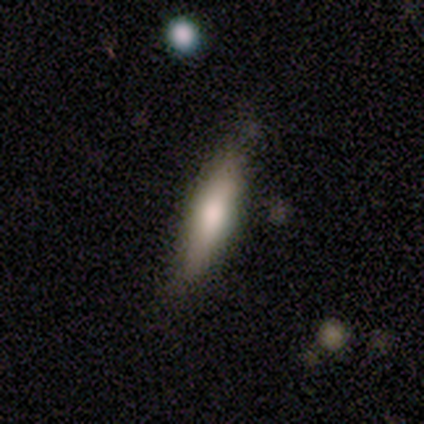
Smooth or featured? 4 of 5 (80%) said smooth. How rounded? 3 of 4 (75%) said cigar-shaped. Merging? 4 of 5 (80%) said none.